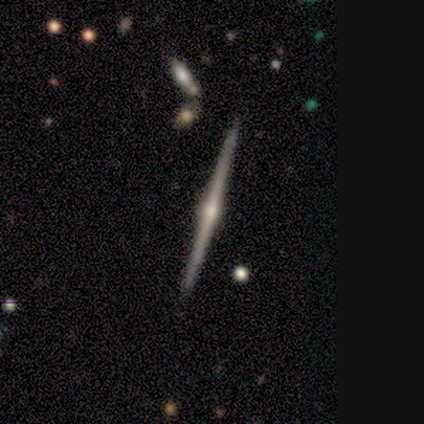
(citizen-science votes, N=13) Consensus on every question: smooth or featured — featured or disk (100%); edge-on disk — yes (100%); edge-on bulge — rounded (100%); merging — none (100%).